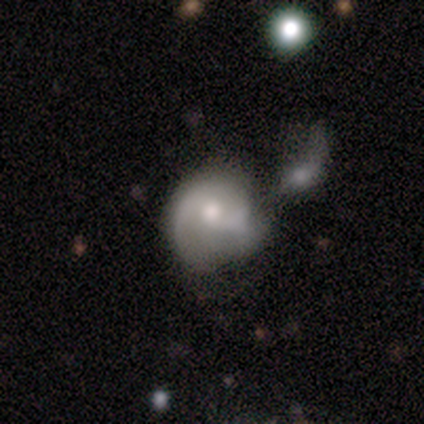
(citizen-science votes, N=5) A featured or disk galaxy (100%) with a weak bar (60%), 2 (75%) loose (50%) spiral arms (80%) and a moderate central bulge (40%, tied with small).

Vote fractions:
- Smooth or featured? featured or disk: 100% / smooth: 0% / star or artifact: 0%
- Edge-on disk? no: 100% / yes: 0%
- Bar? weak: 60% / strong: 20% / no: 20%
- Spiral arms? yes: 80% / no: 20%
- Spiral winding? loose: 50% / tight: 25% / medium: 25%
- Spiral arm count? 2: 75% / 1: 25% / 3: 0% / 4: 0% / more than 4: 0% / can't tell: 0%
- Bulge size? moderate: 40% (tied) / small: 40% (tied) / dominant: 20% / large: 0% / none: 0%
- Merging? none: 40% (tied) / major disturbance: 40% (tied) / merger: 20% / minor disturbance: 0%